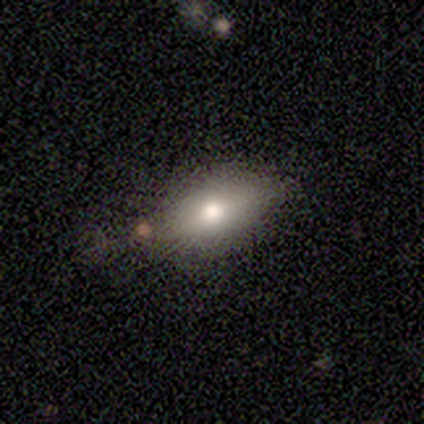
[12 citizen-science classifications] smooth-or-featured: smooth: 92% | star or artifact: 8% | featured or disk: 0%
  how-rounded: in between: 100% | round: 0% | cigar-shaped: 0%
  merging: none: 64% | minor disturbance: 36% | major disturbance: 0% | merger: 0%